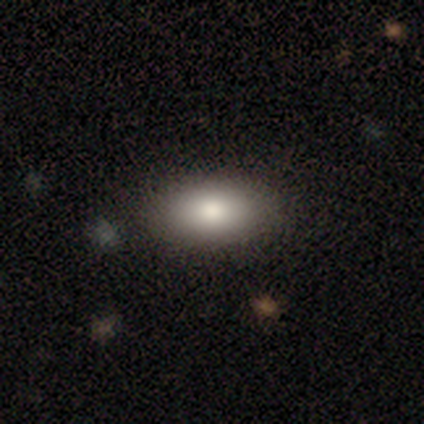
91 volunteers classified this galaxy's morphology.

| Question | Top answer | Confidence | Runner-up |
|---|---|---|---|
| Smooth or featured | smooth | 77% | featured or disk (13%) |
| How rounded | in between | 89% | round (6%) |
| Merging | none | 90% | minor disturbance (9%) |